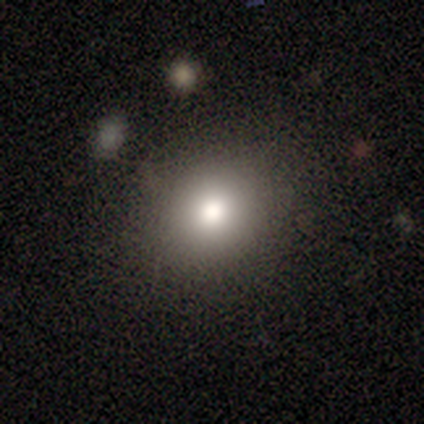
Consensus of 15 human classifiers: A smooth galaxy with no disk features (80%) that is round (75%).

Vote fractions:
- Smooth or featured? smooth: 80% / star or artifact: 13% / featured or disk: 7%
- How rounded? round: 75% / in between: 25% / cigar-shaped: 0%
- Merging? none: 100% / minor disturbance: 0% / major disturbance: 0% / merger: 0%